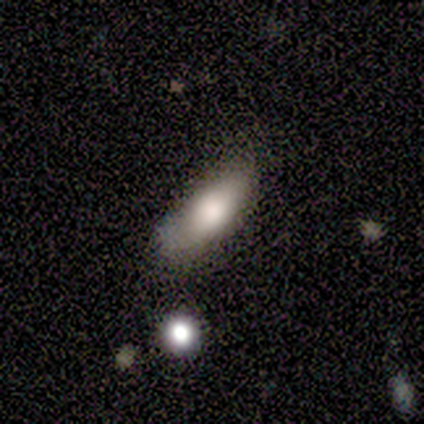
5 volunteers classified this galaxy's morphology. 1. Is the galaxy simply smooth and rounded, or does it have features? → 80% smooth, 20% featured or disk, 0% star or artifact.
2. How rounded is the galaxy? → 50% in between (tied), 50% cigar-shaped (tied), 0% round.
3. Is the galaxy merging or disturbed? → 80% none, 20% minor disturbance, 0% major disturbance, 0% merger.